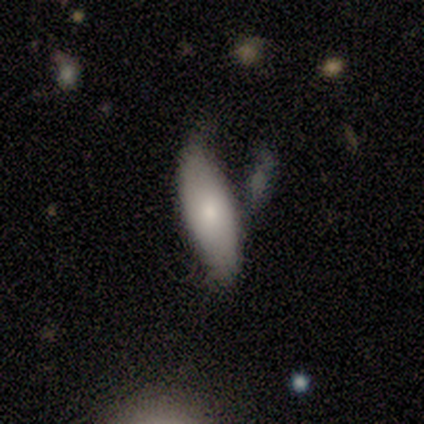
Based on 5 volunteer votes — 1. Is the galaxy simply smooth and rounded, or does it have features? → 80% smooth, 20% star or artifact, 0% featured or disk.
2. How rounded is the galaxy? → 100% in between, 0% round, 0% cigar-shaped.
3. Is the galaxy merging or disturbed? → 50% major disturbance, 25% none, 25% minor disturbance, 0% merger.